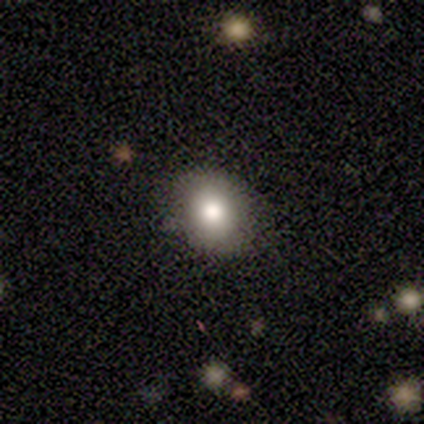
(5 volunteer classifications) This is clearly a smooth galaxy (100%). How rounded: likely in between (60%). Merging: clearly none (80%).